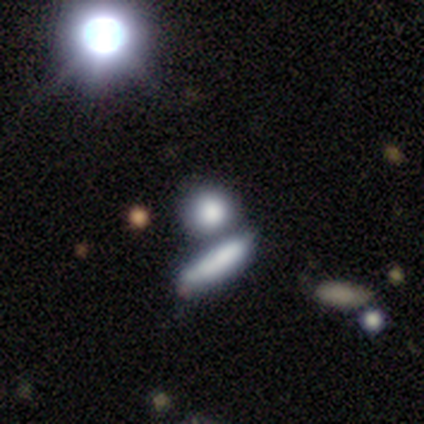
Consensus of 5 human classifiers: Smooth or featured?
  - smooth: 60% *
  - featured or disk: 20%
  - star or artifact: 20%
How rounded?
  - round: 67% *
  - cigar-shaped: 33%
  - in between: 0%
Merging?
  - none: 50% * (tied)
  - merger: 50% * (tied)
  - minor disturbance: 0%
  - major disturbance: 0%